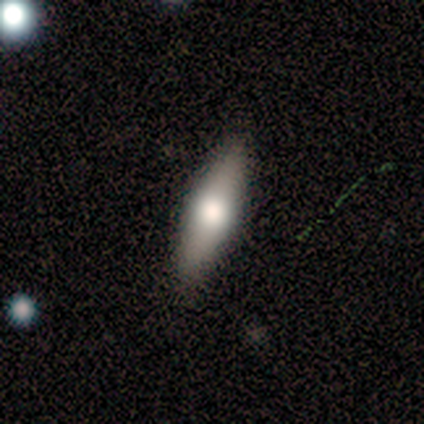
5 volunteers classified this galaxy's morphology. Smooth or featured? featured or disk (60%)
Edge-on disk? yes (100%)
Edge-on bulge? rounded (100%)
Merging? none (80%)